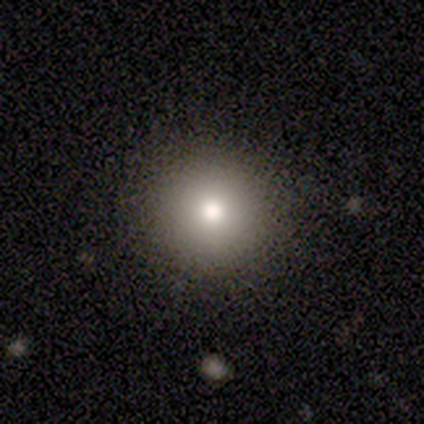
smooth-or-featured: smooth: 80% | star or artifact: 20% | featured or disk: 0%
  how-rounded: round: 100% | in between: 0% | cigar-shaped: 0%
  merging: none: 100% | minor disturbance: 0% | major disturbance: 0% | merger: 0%